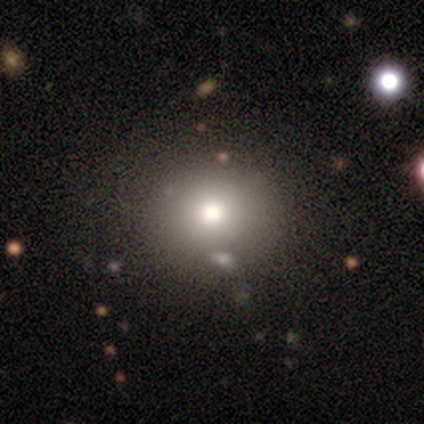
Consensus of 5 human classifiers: Smooth or featured?
  - smooth: 60% *
  - featured or disk: 20%
  - star or artifact: 20%
How rounded?
  - round: 100% *
  - in between: 0%
  - cigar-shaped: 0%
Merging?
  - none: 75% *
  - major disturbance: 25%
  - minor disturbance: 0%
  - merger: 0%